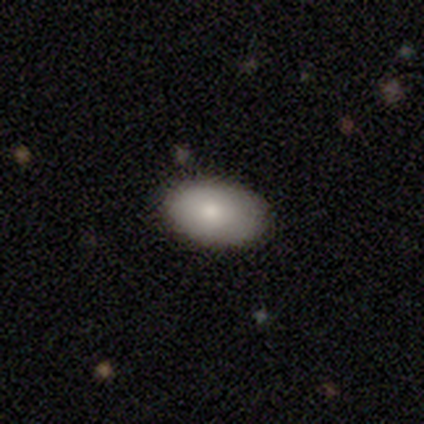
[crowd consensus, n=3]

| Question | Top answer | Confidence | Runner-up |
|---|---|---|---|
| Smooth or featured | smooth | 67% | featured or disk (33%) |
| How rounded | in between | 100% | — |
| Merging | none | 100% | — |